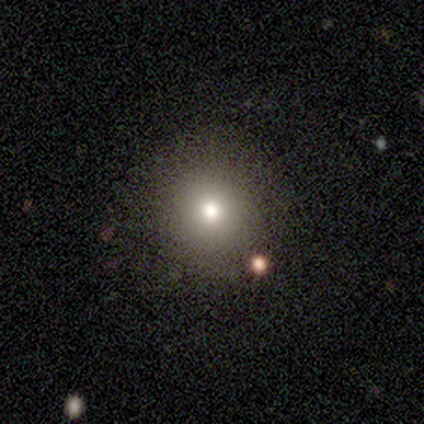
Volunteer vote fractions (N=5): smooth-or-featured: smooth: 60% | featured or disk: 20% | star or artifact: 20%
  how-rounded: round: 67% | in between: 33% | cigar-shaped: 0%
  merging: none: 100% | minor disturbance: 0% | major disturbance: 0% | merger: 0%